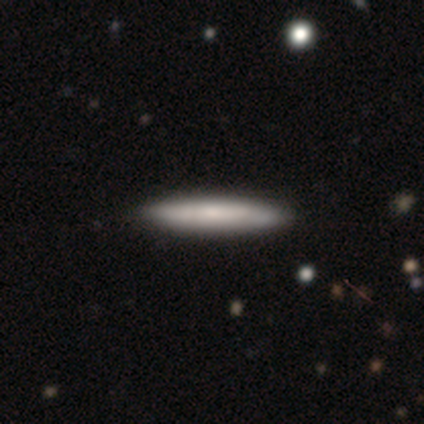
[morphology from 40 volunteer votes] Overall: smooth (68%; featured or disk 32%). How rounded: cigar-shaped (96%). Merging: none (75%).